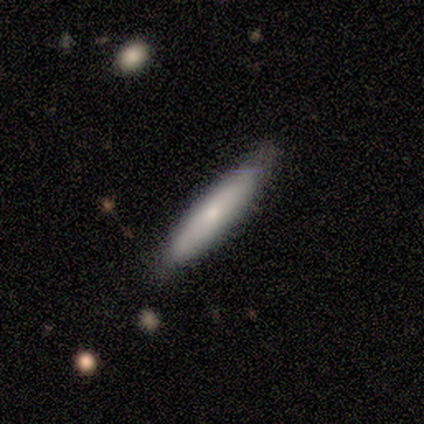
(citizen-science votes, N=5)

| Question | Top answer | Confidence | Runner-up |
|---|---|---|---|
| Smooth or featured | smooth | 100% | — |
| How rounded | cigar-shaped | 100% | — |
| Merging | none | 80% | minor disturbance (20%) |